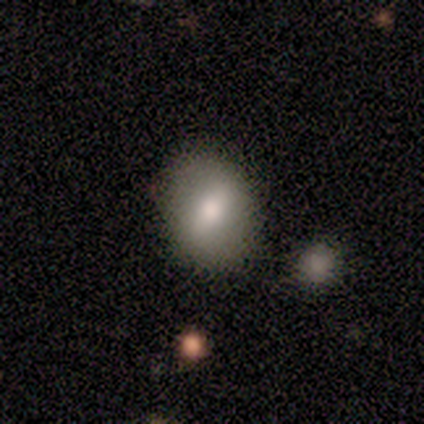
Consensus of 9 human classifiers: Smooth or featured?
  - smooth: 56% *
  - featured or disk: 33%
  - star or artifact: 11%
How rounded?
  - in between: 80% *
  - round: 20%
  - cigar-shaped: 0%
Merging?
  - none: 75% *
  - minor disturbance: 25%
  - major disturbance: 0%
  - merger: 0%